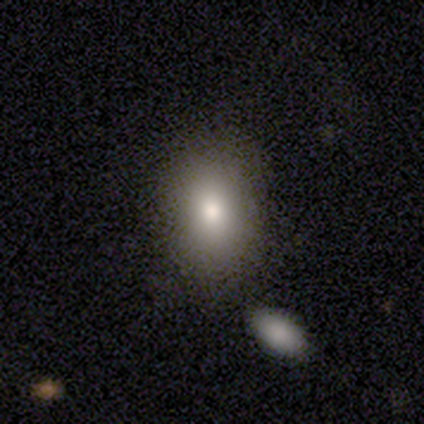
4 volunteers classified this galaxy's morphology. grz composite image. It shows a smooth galaxy with no disk features (75%) that is in between round and cigar-shaped (67%). Merging: none (75%).